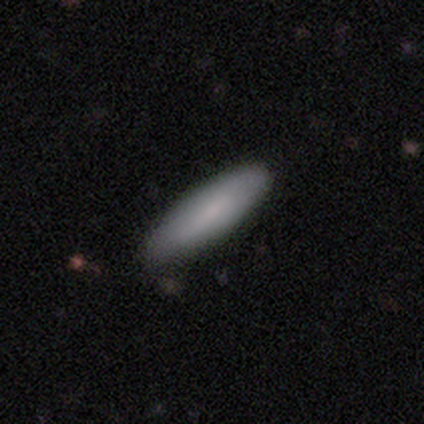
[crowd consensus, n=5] A smooth galaxy with no disk features (100%) that is cigar-shaped (100%). Merging: none (80%).